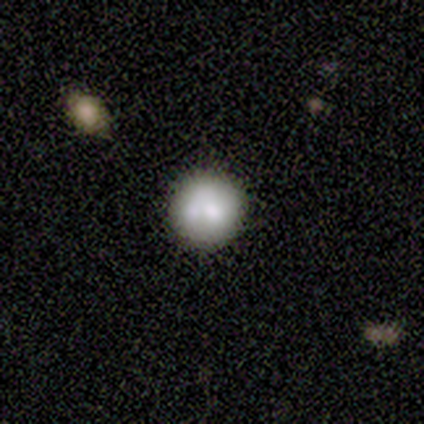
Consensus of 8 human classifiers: smooth 88%, featured or disk 12%, star or artifact 0%. Down the decision tree: how rounded — round (100%); merging — none (88%).